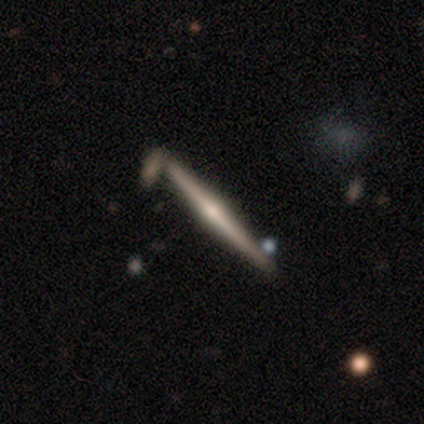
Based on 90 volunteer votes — Smooth or featured?
  - featured or disk: 80% *
  - smooth: 16%
  - star or artifact: 4%
Edge-on disk?
  - yes: 100% *
  - no: 0%
Edge-on bulge?
  - rounded: 81% *
  - none: 14%
  - boxy: 6%
Merging?
  - none: 78% *
  - minor disturbance: 10%
  - merger: 9%
  - major disturbance: 2%